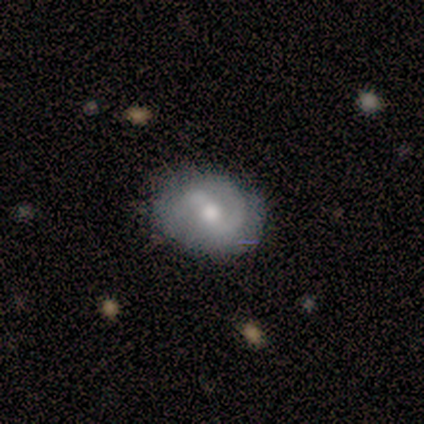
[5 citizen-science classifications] Q: Smooth or featured?
A: smooth (60%); runner-up: featured or disk (40%)
Q: How rounded?
A: in between (100%)
Q: Merging?
A: none (80%); runner-up: major disturbance (20%)